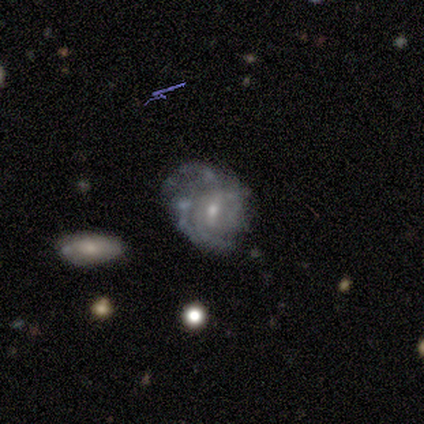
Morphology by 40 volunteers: This is clearly a featured or disk galaxy (92%). It is clearly not viewed edge-on (92%). Bar: likely weak (65%). Spiral arm pattern: likely yes (71%). Spiral arm count: possibly can't tell (58%). Spiral winding: possibly medium (46%). Central bulge: possibly small (50%). Merging: marginally none (45%).